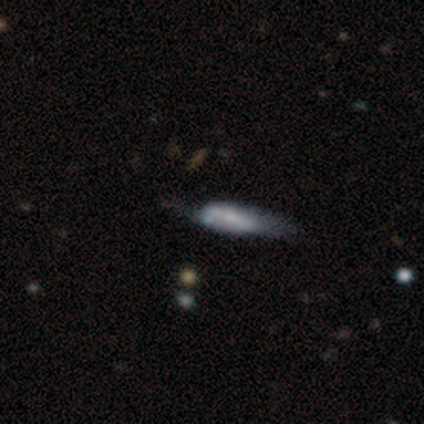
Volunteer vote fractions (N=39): smooth_or_featured: smooth (p=0.44) [tied with: featured or disk p=0.44]
how_rounded: cigar-shaped (p=0.59) [alt: in between p=0.35]
merging: minor disturbance (p=0.38) [alt: none p=0.35]